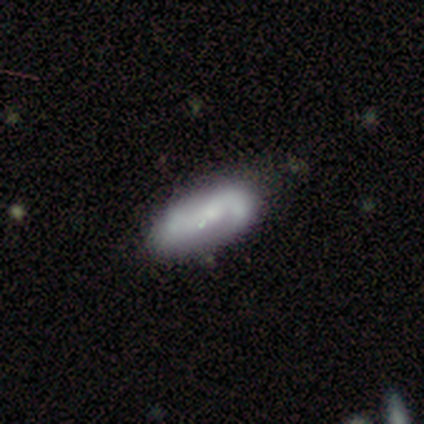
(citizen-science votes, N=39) Smooth or featured: featured or disk — 62% (smooth — 33%)
Edge-on disk: no — 92% (yes — 8%)
Bar: no — 55% (weak — 36%)
Spiral arms: yes — 77% (no — 23%)
Spiral winding: loose — 47% (medium — 41%)
Spiral arm count: 2 — 76% (1 — 12%)
Bulge size: small — 45% (none — 27%)
Merging: none — 41% (minor disturbance — 22%)